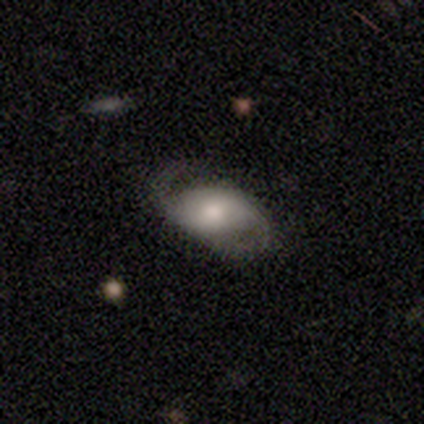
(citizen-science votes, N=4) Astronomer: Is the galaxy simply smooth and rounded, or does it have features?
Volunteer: featured or disk — 75%.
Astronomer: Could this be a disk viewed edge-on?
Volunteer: no — 100%.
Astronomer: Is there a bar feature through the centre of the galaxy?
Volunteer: no — 100%.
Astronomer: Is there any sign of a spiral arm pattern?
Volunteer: yes — 67%.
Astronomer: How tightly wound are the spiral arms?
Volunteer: medium — 50%, tied with loose at 50%.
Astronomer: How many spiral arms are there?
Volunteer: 2 — 100%.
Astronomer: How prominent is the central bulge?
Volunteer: moderate — 100%.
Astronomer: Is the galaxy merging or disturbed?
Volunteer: none — 50%, tied with minor disturbance at 50%.